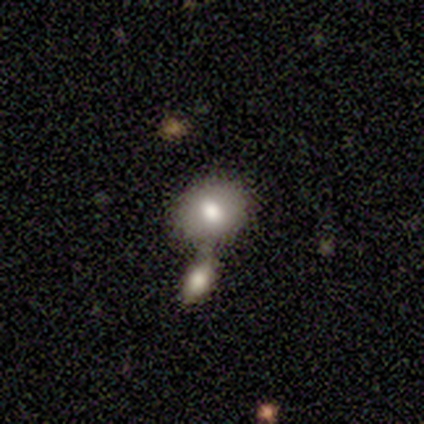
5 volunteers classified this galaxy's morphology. Smooth or featured? 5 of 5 (100%) said smooth. How rounded? 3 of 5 (60%) said in between. Merging? 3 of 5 (60%) said merger.